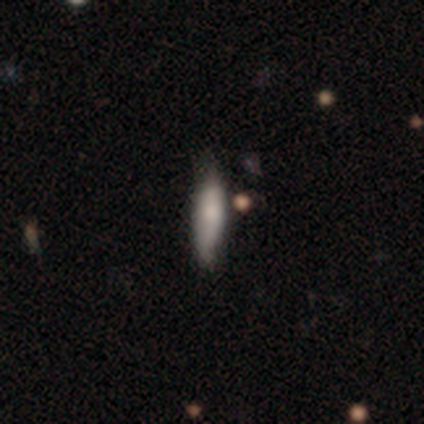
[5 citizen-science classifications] smooth 60%, featured or disk 20%, star or artifact 20%. Down the decision tree: how rounded — cigar-shaped (67%); merging — none (50%, tied with minor disturbance).